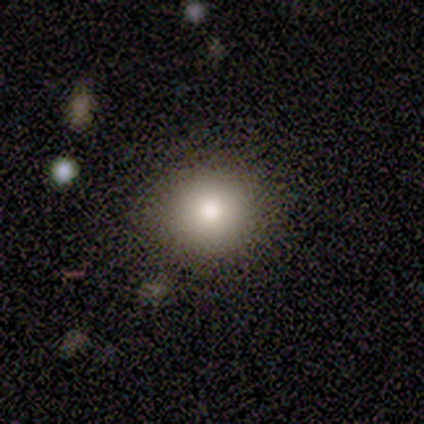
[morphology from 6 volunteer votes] A smooth galaxy with no disk features (67%) that is round (75%).

Vote fractions:
- Smooth or featured? smooth: 67% / featured or disk: 33% / star or artifact: 0%
- How rounded? round: 75% / in between: 25% / cigar-shaped: 0%
- Merging? none: 83% / merger: 17% / minor disturbance: 0% / major disturbance: 0%